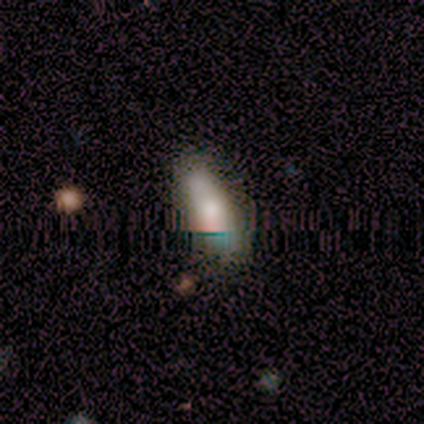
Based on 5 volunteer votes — This appears to be a smooth galaxy with no disk features (60%) that is in between round and cigar-shaped (67%). Merging: none (60%).